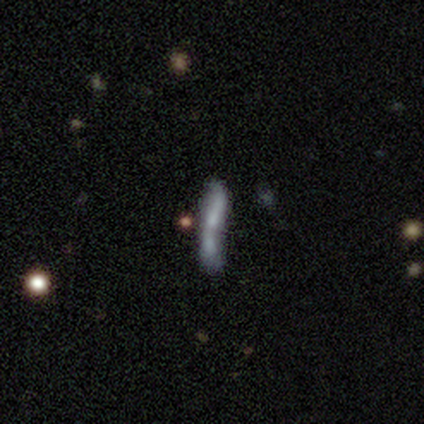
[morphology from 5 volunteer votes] Q: Smooth or featured?
A: featured or disk (80%); runner-up: smooth (20%)
Q: Edge-on disk?
A: no (75%); runner-up: yes (25%)
Q: Bar?
A: no (100%)
Q: Spiral arms?
A: no (100%)
Q: Bulge size?
A: dominant (33%); tied with: small (33%); none (33%)
Q: Merging?
A: merger (40%); runner-up: none (20%)